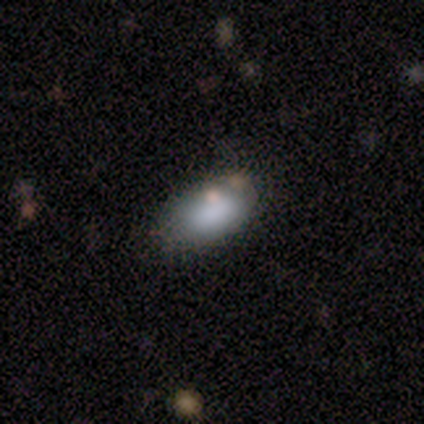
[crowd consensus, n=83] This is likely a smooth galaxy (78%). How rounded: clearly in between (85%). Merging: likely none (74%).